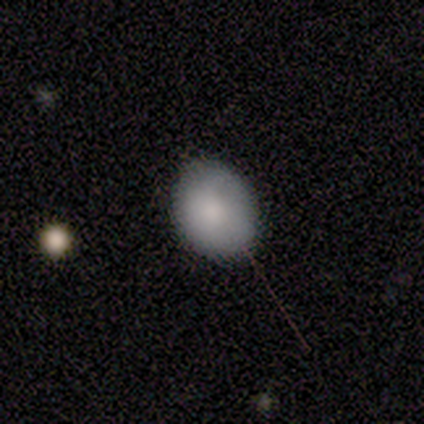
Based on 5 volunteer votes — smooth_or_featured: smooth (p=1.00)
how_rounded: in between (p=0.60) [alt: round p=0.40]
merging: none (p=0.60) [alt: minor disturbance p=0.40]